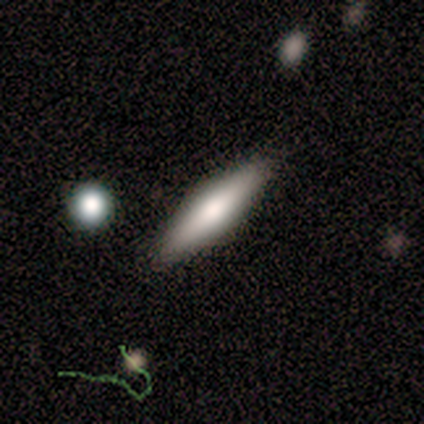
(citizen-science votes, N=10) Smooth or featured? smooth (70%)
How rounded? cigar-shaped (71%)
Merging? none (90%)